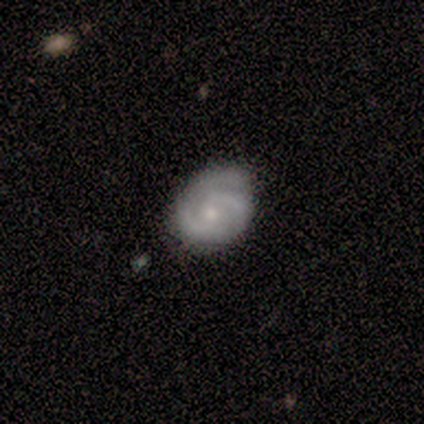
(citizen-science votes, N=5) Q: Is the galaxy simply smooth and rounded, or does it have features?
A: featured or disk — 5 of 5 (100%).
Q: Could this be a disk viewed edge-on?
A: no — 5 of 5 (100%).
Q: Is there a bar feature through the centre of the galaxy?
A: no — 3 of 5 (60%).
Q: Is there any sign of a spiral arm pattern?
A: yes — 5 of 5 (100%).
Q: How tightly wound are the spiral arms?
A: tight — 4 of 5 (80%).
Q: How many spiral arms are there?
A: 2 — 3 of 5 (60%).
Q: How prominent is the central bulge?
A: small — 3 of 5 (60%).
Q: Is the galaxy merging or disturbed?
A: none — 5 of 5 (100%).